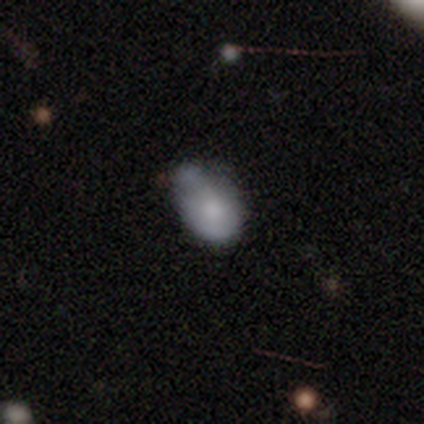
This is clearly a smooth galaxy (83%). How rounded: clearly in between (90%). Merging: possibly none (55%).